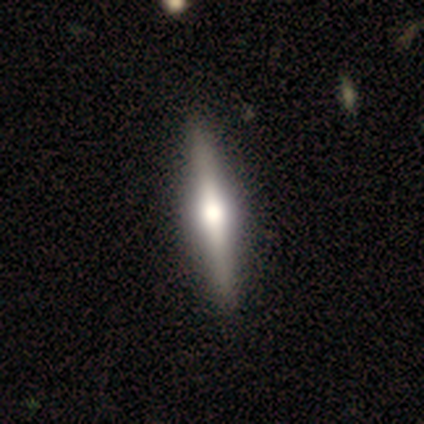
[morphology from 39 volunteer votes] Smooth or featured: featured or disk — 69% (smooth — 23%)
Edge-on disk: yes — 100%
Edge-on bulge: rounded — 93% (boxy — 4%)
Merging: none — 100%